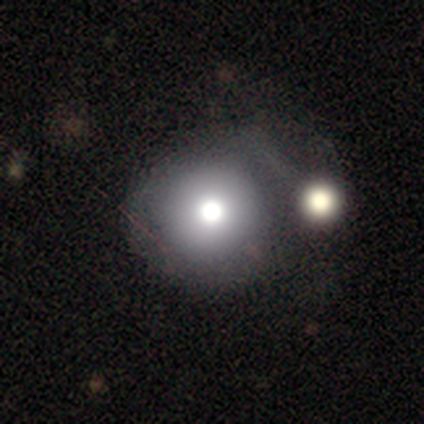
smooth_or_featured: smooth (p=0.67) [alt: featured or disk p=0.16]
how_rounded: round (p=0.98) [alt: in between p=0.02]
merging: none (p=0.40) [alt: major disturbance p=0.22]